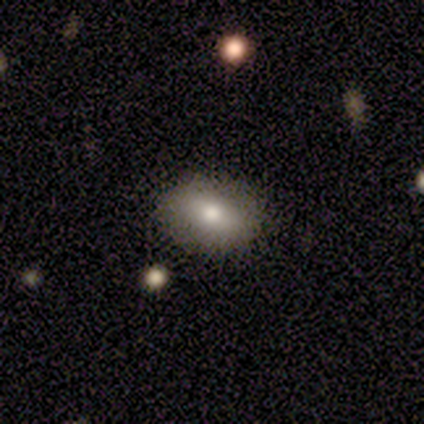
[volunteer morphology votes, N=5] Smooth or featured?
  - smooth: 60% *
  - featured or disk: 40%
  - star or artifact: 0%
How rounded?
  - in between: 100% *
  - round: 0%
  - cigar-shaped: 0%
Merging?
  - none: 80% *
  - merger: 20%
  - minor disturbance: 0%
  - major disturbance: 0%